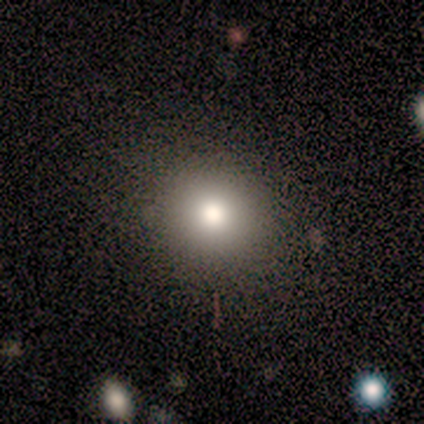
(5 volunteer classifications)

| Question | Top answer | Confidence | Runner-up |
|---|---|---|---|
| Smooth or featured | smooth | 80% | star or artifact (20%) |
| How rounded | round | 75% | in between (25%) |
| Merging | none | 100% | — |